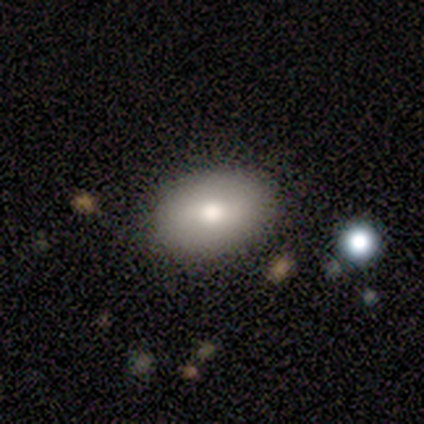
Overall: smooth (86%). How rounded: in between (100%). Merging: none (100%).